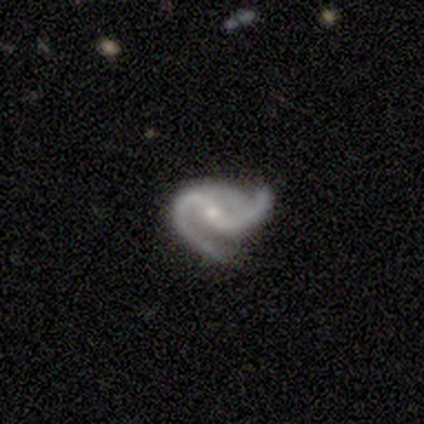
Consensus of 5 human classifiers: This is clearly a featured or disk galaxy (100%). It is clearly not viewed edge-on (100%). Bar: likely weak (60%). Spiral arm pattern: clearly yes (80%). Spiral arm count: clearly 2 (100%). Spiral winding: possibly medium (50%, tied with loose). Central bulge: likely small (60%). Merging: marginally minor disturbance (40%, tied with major disturbance).